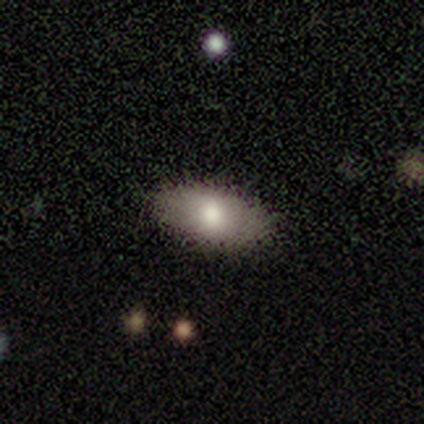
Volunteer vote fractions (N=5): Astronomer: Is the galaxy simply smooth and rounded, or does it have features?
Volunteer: smooth — 60% (runner-up: featured or disk, 40%).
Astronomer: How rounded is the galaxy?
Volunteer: in between — 100%.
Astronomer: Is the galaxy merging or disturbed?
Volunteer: none — 80%.